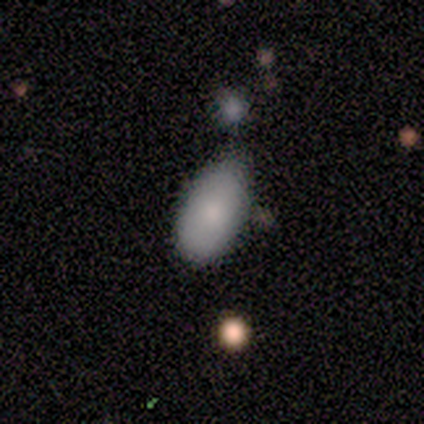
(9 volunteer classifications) Volunteers were most divided on "merging" (2-way tie): none: 50%, minor disturbance: 50%, major disturbance: 0%, merger: 0%. More confident: how rounded — in between (100%); smooth or featured — smooth (67%).